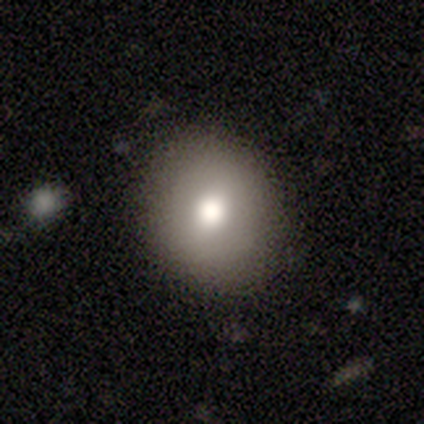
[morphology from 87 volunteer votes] This is likely a smooth galaxy (75%). How rounded: clearly round (80%). Merging: clearly none (87%).